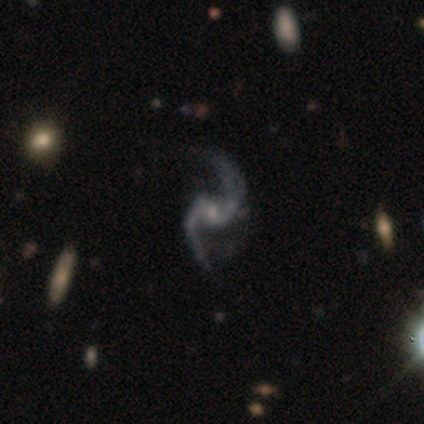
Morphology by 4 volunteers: Overall: featured or disk (75%). Edge-on disk: no (100%). Bar: weak (100%). Spiral arms: yes (100%). Spiral arm count: 2 (100%). Spiral winding: loose (67%; medium 33%). Bulge size: small (67%; none 33%). Merging: none (33%, tied with minor disturbance and merger).